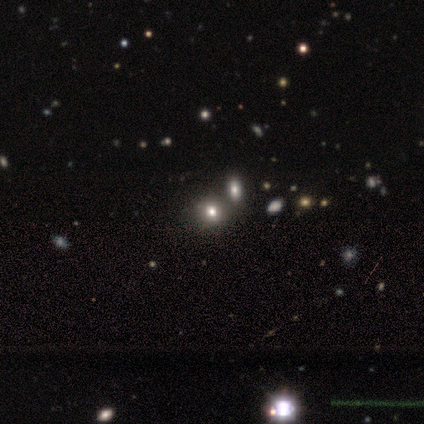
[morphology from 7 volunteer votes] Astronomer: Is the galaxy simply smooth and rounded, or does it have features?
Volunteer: star or artifact — 57%.